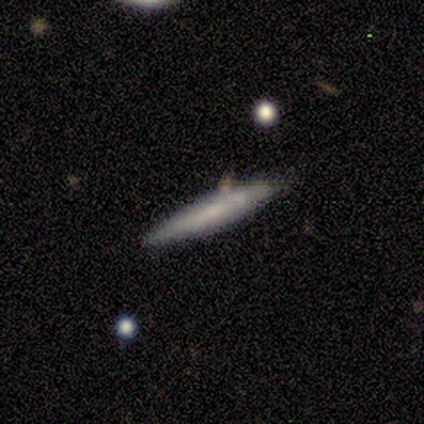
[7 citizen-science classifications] A smooth galaxy with no disk features (71%) that is cigar-shaped (100%).

Vote fractions:
- Smooth or featured? smooth: 71% / featured or disk: 14% / star or artifact: 14%
- How rounded? cigar-shaped: 100% / round: 0% / in between: 0%
- Merging? none: 100% / minor disturbance: 0% / major disturbance: 0% / merger: 0%